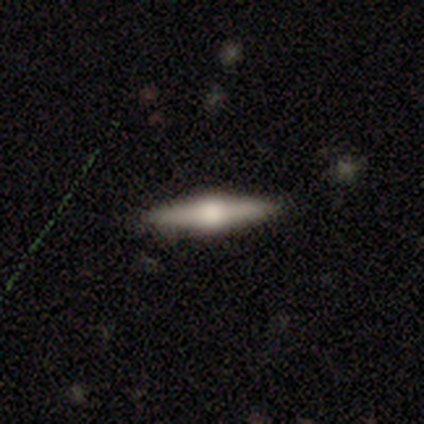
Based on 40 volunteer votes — Volunteers were most divided on "smooth or featured": featured or disk: 72%, smooth: 20%, star or artifact: 8%. More confident: edge-on disk — yes (100%); merging — none (92%); edge-on bulge — rounded (90%).